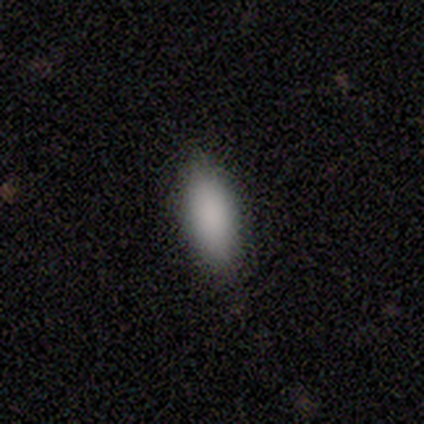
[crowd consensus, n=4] Smooth or featured?
  - smooth: 100% *
  - featured or disk: 0%
  - star or artifact: 0%
How rounded?
  - in between: 75% *
  - cigar-shaped: 25%
  - round: 0%
Merging?
  - none: 75% *
  - minor disturbance: 25%
  - major disturbance: 0%
  - merger: 0%